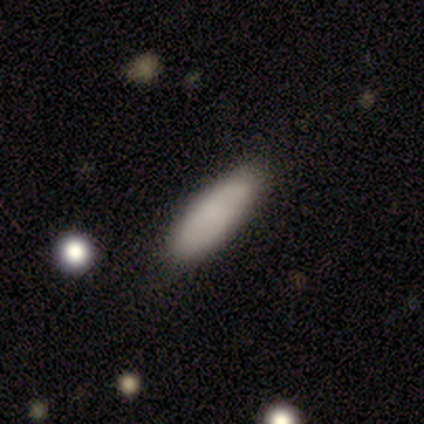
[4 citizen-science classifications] Smooth or featured? smooth (75%)
How rounded? in between (67%)
Merging? none (67%)